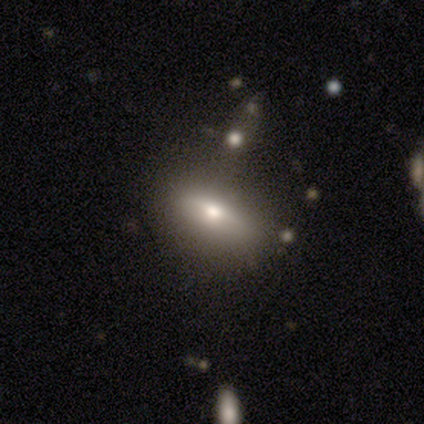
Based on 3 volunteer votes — This is clearly a smooth galaxy (100%). How rounded: likely cigar-shaped (67%). Merging: likely none (67%).